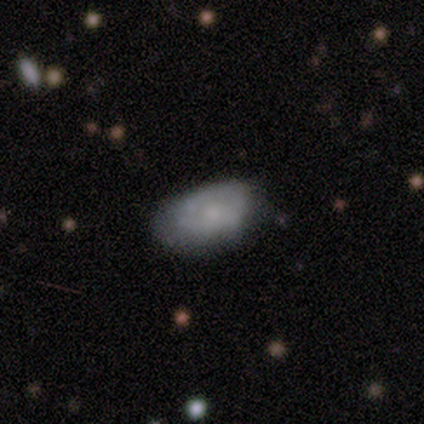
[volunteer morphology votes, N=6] This appears to be a smooth galaxy with no disk features (83%) that is in between round and cigar-shaped (80%). Merging: none (50%).